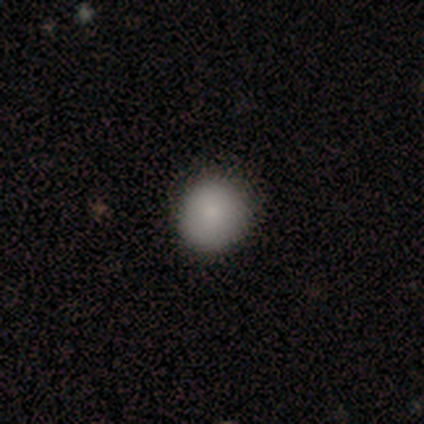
This appears to be a smooth galaxy with no disk features (80%) that is round (100%). Merging: none (100%).